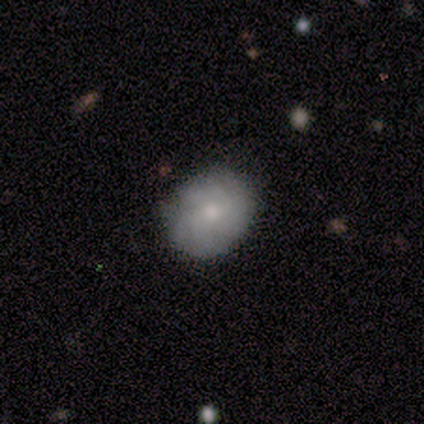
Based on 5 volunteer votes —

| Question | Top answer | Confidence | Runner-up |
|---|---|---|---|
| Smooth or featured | smooth | 60% | featured or disk (20%) |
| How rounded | in between | 67% | round (33%) |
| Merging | none | 75% | minor disturbance (25%) |